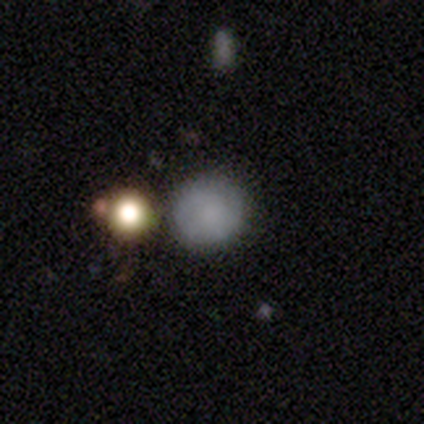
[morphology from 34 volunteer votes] A smooth galaxy with no disk features (74%) that is round (80%). Merging: merger (50%).